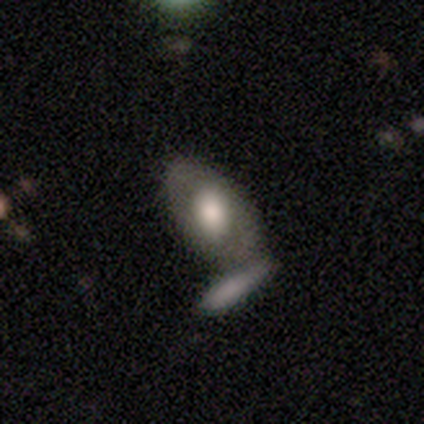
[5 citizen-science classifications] Morphology: type=smooth (40%, tied with featured or disk); roundness=in between (100%); merging=none (50%, tied with merger).